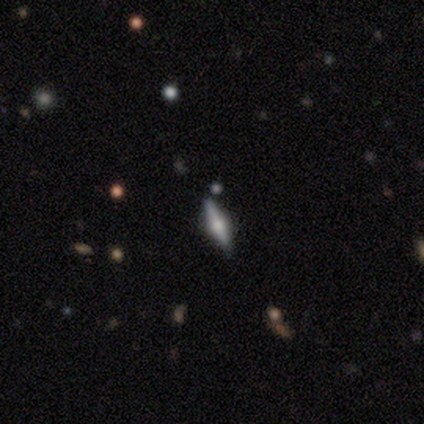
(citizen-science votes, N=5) Smooth or featured? 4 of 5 (80%) said featured or disk. Edge-on disk? 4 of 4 (100%) said yes. Edge-on bulge? 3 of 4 (75%) said rounded. Merging? 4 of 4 (100%) said none.